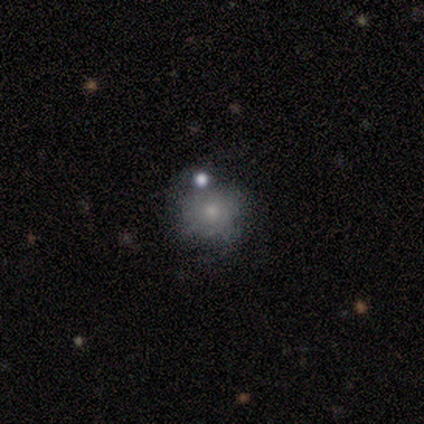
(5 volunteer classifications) Smooth or featured: smooth — 100%
How rounded: round — 80% (in between — 20%)
Merging: none — 80% (minor disturbance — 20%)